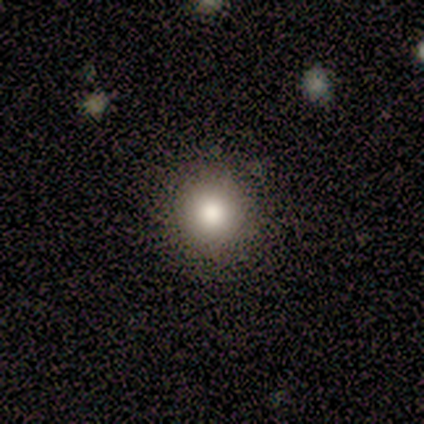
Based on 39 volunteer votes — Q: Smooth or featured?
A: smooth (74%); runner-up: featured or disk (15%)
Q: How rounded?
A: round (97%); runner-up: in between (3%)
Q: Merging?
A: none (91%); runner-up: minor disturbance (6%)